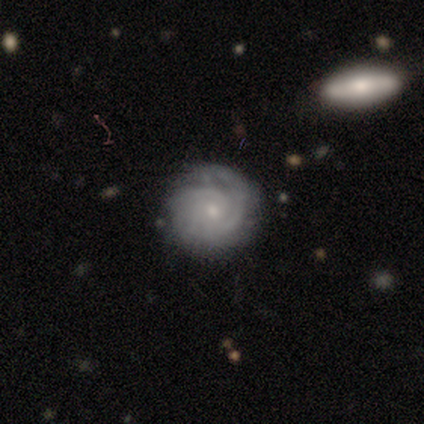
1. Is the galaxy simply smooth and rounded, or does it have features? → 75% featured or disk, 25% smooth, 0% star or artifact.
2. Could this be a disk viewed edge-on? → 100% no, 0% yes.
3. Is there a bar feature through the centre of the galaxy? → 83% no, 17% weak, 0% strong.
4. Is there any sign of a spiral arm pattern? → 83% yes, 17% no.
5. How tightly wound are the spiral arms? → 100% tight, 0% medium, 0% loose.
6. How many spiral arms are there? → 40% can't tell, 20% 1, 20% 2, 20% 3, 0% 4, 0% more than 4.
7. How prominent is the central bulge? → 100% small, 0% dominant, 0% large, 0% moderate, 0% none.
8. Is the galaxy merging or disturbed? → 50% none (tied), 50% minor disturbance (tied), 0% major disturbance, 0% merger.